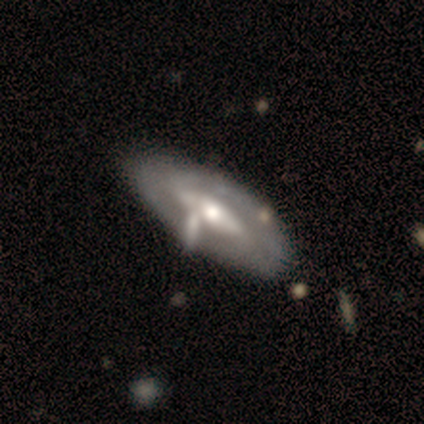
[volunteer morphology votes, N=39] This is likely a featured or disk galaxy (64%). It is clearly not viewed edge-on (80%). Bar: marginally strong (40%). Spiral arm pattern: likely no (60%). Central bulge: clearly moderate (80%). Merging: likely none (65%).